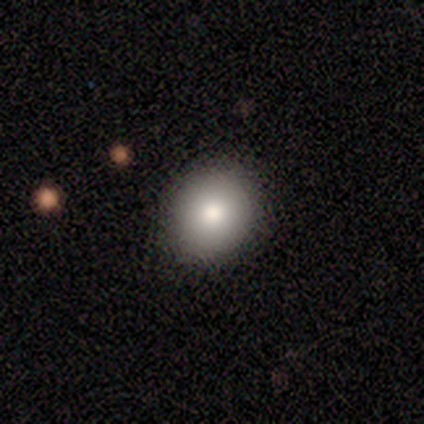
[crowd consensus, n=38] Smooth or featured: smooth — 76% (featured or disk — 18%)
How rounded: round — 83% (in between — 14%)
Merging: none — 92% (minor disturbance — 8%)